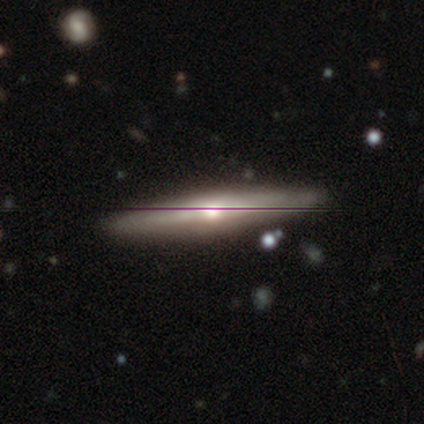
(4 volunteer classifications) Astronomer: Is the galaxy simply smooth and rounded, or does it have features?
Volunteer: featured or disk — 50%.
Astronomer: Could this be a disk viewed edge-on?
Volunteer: yes — 100%.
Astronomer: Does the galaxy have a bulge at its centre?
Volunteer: rounded — 100%.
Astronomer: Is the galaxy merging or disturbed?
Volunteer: none — 100%.